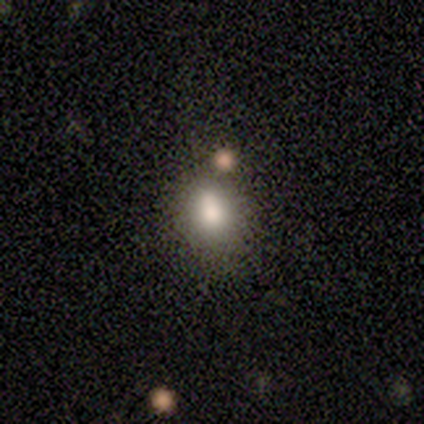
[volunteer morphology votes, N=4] Smooth or featured: smooth — 100%
How rounded: in between — 75% (round — 25%)
Merging: none — 50% (minor disturbance — 25%)